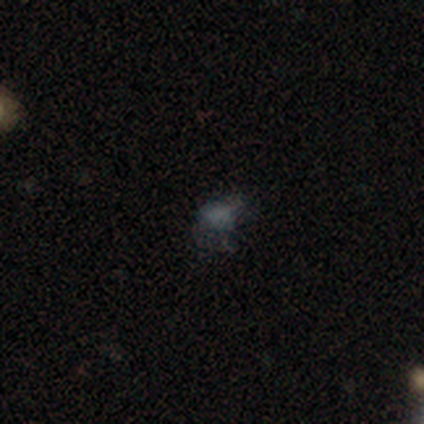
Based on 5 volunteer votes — smooth 80%, star or artifact 20%, featured or disk 0%. Down the decision tree: how rounded — round (50%, tied with in between); merging — none (50%, tied with minor disturbance).